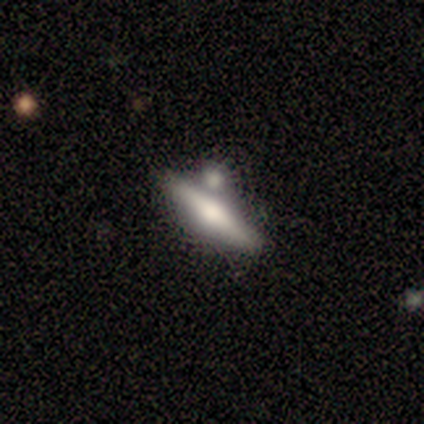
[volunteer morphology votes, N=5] Smooth or featured: featured or disk — 60% (smooth — 40%)
Edge-on disk: yes — 100%
Edge-on bulge: rounded — 100%
Merging: merger — 80% (none — 20%)